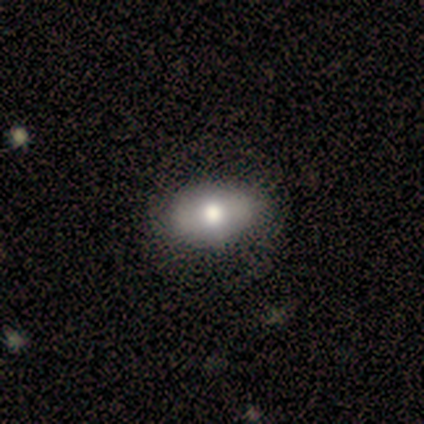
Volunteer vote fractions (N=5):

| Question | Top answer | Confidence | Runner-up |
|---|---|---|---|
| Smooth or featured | smooth | 40% | tied: featured or disk (40%) |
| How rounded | in between | 100% | — |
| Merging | none | 75% | minor disturbance (25%) |